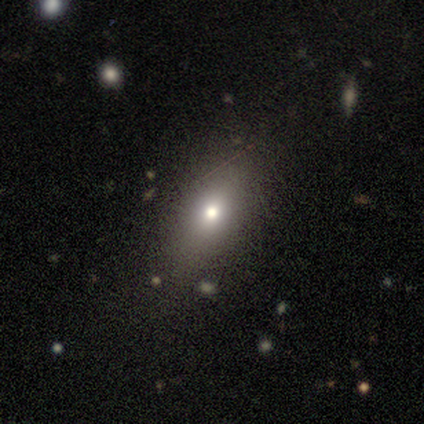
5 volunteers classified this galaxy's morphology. smooth 80%, star or artifact 20%, featured or disk 0%. Down the decision tree: how rounded — in between (75%); merging — none (75%).